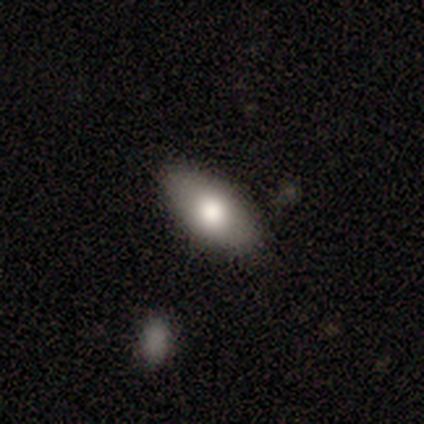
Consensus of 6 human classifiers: Smooth or featured: smooth — 83% (featured or disk — 17%)
How rounded: in between — 100%
Merging: none — 100%